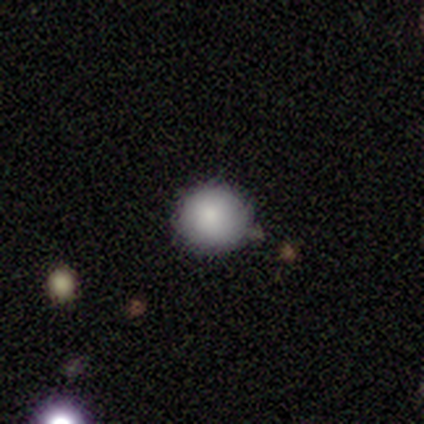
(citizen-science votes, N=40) Overall: smooth (80%). How rounded: round (94%). Merging: none (83%).